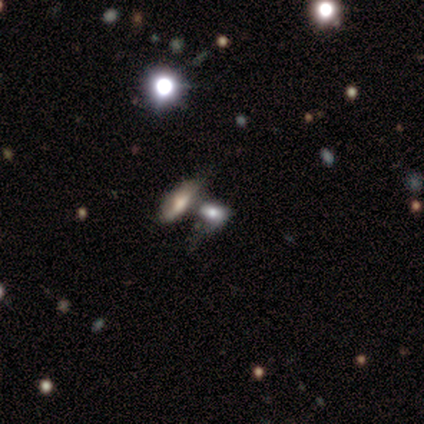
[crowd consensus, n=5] smooth-or-featured: featured or disk: 40% (tied) | star or artifact: 40% (tied) | smooth: 20%
  disk-edge-on: no: 100% | yes: 0%
    bar: no: 100% | strong: 0% | weak: 0%
    has-spiral-arms: no: 100% | yes: 0%
    bulge-size: large: 100% | dominant: 0% | moderate: 0% | small: 0% | none: 0%
  merging: none: 67% | merger: 33% | minor disturbance: 0% | major disturbance: 0%